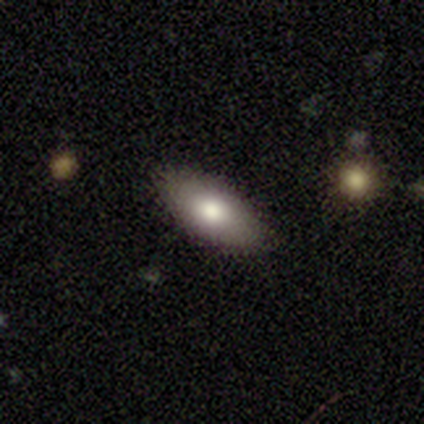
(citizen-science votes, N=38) Smooth or featured: smooth — 79% (featured or disk — 13%)
How rounded: in between — 93% (round — 3%)
Merging: none — 89% (minor disturbance — 9%)